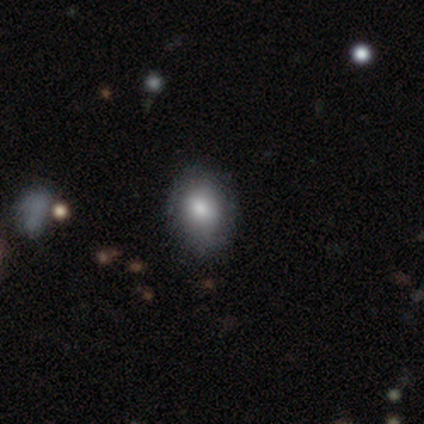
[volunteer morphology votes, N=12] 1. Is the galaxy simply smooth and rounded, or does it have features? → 67% smooth, 33% featured or disk, 0% star or artifact.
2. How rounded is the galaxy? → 62% in between, 38% round, 0% cigar-shaped.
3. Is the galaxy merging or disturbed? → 92% none, 8% minor disturbance, 0% major disturbance, 0% merger.